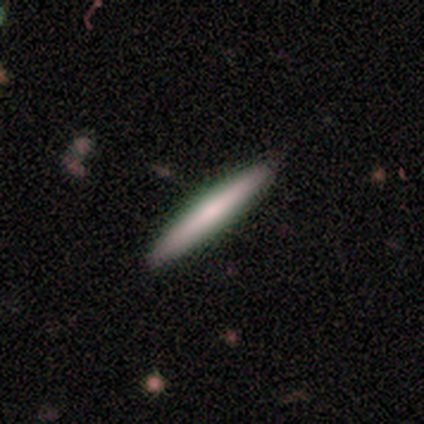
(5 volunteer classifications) This appears to be a smooth galaxy with no disk features (60%) that is cigar-shaped (67%). Merging: none (100%).